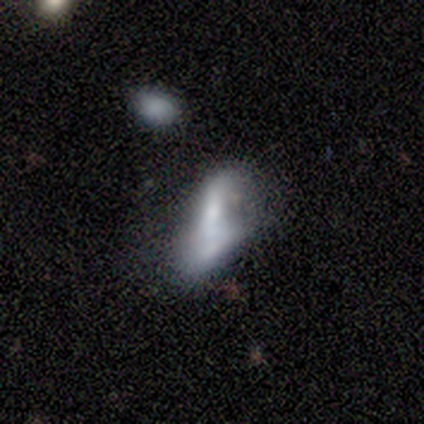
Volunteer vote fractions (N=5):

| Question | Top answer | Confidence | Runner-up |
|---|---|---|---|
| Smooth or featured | featured or disk | 60% | smooth (40%) |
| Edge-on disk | no | 100% | — |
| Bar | weak | 67% | strong (33%) |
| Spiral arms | yes | 67% | no (33%) |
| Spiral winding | tight | 50% | tied: loose (50%) |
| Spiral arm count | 1 | 50% | tied: 2 (50%) |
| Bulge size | moderate | 33% | tied: small (33%), none (33%) |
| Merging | minor disturbance | 40% | tied: major disturbance (40%) |